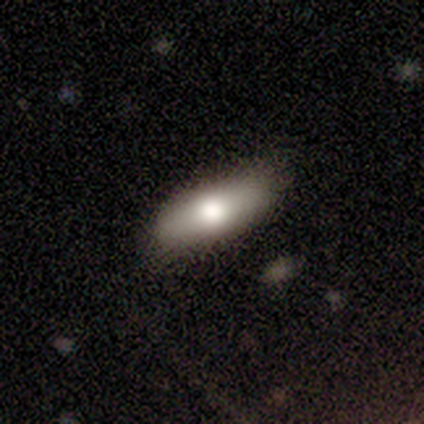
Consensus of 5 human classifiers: A smooth galaxy with no disk features (60%) that is in between round and cigar-shaped (100%). Merging: none (75%).